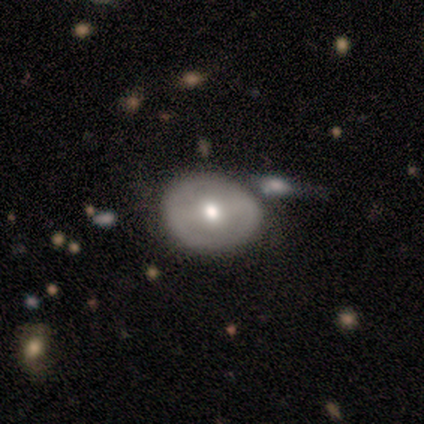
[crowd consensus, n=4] Q: Smooth or featured?
A: featured or disk (75%); runner-up: smooth (25%)
Q: Edge-on disk?
A: no (100%)
Q: Bar?
A: no (67%); runner-up: strong (33%)
Q: Spiral arms?
A: no (100%)
Q: Bulge size?
A: small (67%); runner-up: moderate (33%)
Q: Merging?
A: none (50%); tied with: merger (50%)